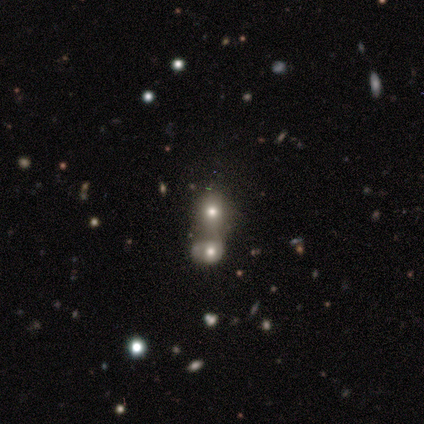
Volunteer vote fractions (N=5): smooth-or-featured: smooth: 100% | featured or disk: 0% | star or artifact: 0%
  how-rounded: round: 100% | in between: 0% | cigar-shaped: 0%
  merging: merger: 80% | none: 20% | minor disturbance: 0% | major disturbance: 0%